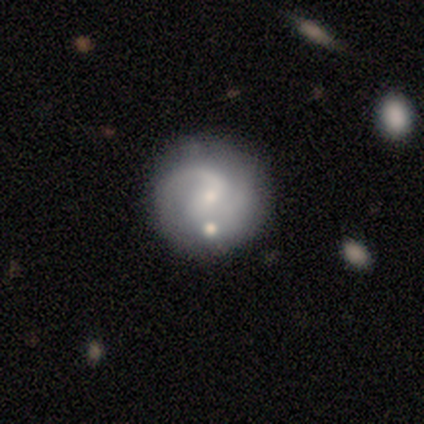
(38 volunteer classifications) smooth_or_featured: featured or disk (p=0.89) [alt: smooth p=0.11]
disk_edge_on: no (p=0.97) [alt: yes p=0.03]
bar: weak (p=0.55) [alt: no p=0.42]
has_spiral_arms: yes (p=0.91) [alt: no p=0.09]
spiral_winding: medium (p=0.50) [alt: loose p=0.30]
spiral_arm_count: 2 (p=0.60) [alt: can't tell p=0.20]
bulge_size: small (p=0.79) [alt: moderate p=0.21]
merging: none (p=0.71) [alt: minor disturbance p=0.16]